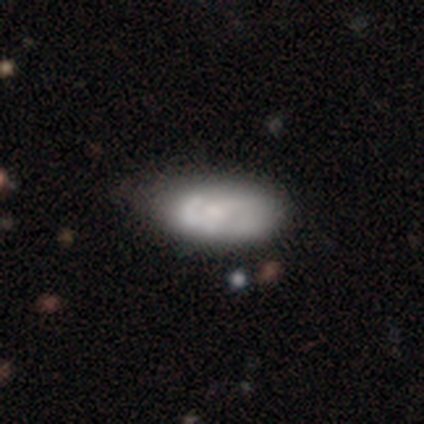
Morphology: type=smooth (51%); roundness=in between (90%); merging=none (31%).